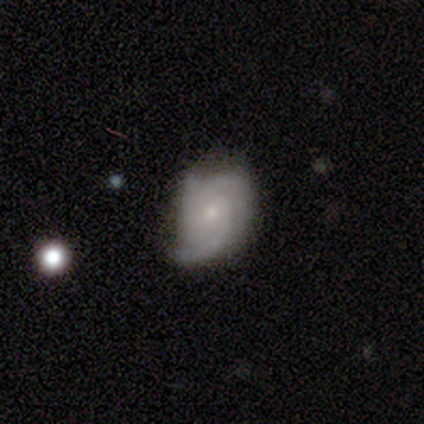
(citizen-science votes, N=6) Morphology: type=featured or disk (100%); edge-on=no (100%); bar=no (83%); spiral arms=yes (100%); winding=tight (50%); arm count=3 (67%); bulge=small (83%); merging=none (50%, tied with minor disturbance).